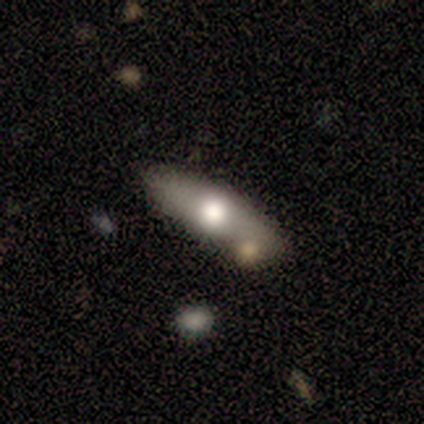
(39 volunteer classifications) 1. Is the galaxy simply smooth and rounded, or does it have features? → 49% smooth, 46% featured or disk, 5% star or artifact.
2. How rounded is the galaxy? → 58% in between, 42% cigar-shaped, 0% round.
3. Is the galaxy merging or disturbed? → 70% none, 16% merger, 14% minor disturbance, 0% major disturbance.